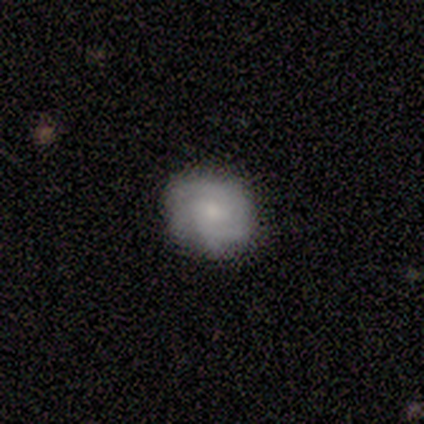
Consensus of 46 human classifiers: Volunteers were most divided on "spiral arm count": can't tell: 31%, 2: 23%, 3: 23%, 4: 12%, more than 4: 12%, 1: 0%. More confident: edge-on disk — no (97%); spiral arms — yes (87%); merging — none (71%); smooth or featured — featured or disk (67%); bar — no (63%); spiral winding — tight (58%); bulge size — moderate (57%).